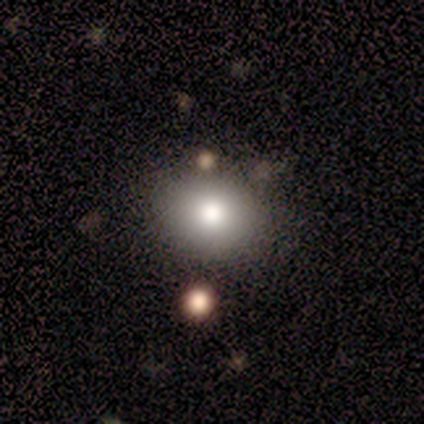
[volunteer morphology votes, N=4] smooth 75%, featured or disk 25%, star or artifact 0%. Down the decision tree: how rounded — round (67%); merging — none (100%).